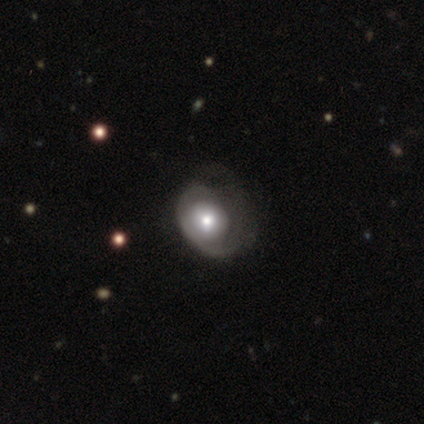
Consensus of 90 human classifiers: Smooth or featured?
  - featured or disk: 53% *
  - smooth: 40%
  - star or artifact: 7%
Edge-on disk?
  - no: 98% *
  - yes: 2%
Bar?
  - no: 83% *
  - weak: 15%
  - strong: 2%
Spiral arms?
  - yes: 55% *
  - no: 45%
Spiral winding?
  - tight: 54% *
  - loose: 31%
  - medium: 15%
Spiral arm count?
  - 1: 54% *
  - can't tell: 31%
  - 2: 8%
  - 4: 4%
  - more than 4: 4%
  - 3: 0%
Bulge size?
  - moderate: 60% *
  - large: 23%
  - small: 17%
  - dominant: 0%
  - none: 0%
Merging?
  - major disturbance: 44% *
  - none: 33%
  - minor disturbance: 20%
  - merger: 2%